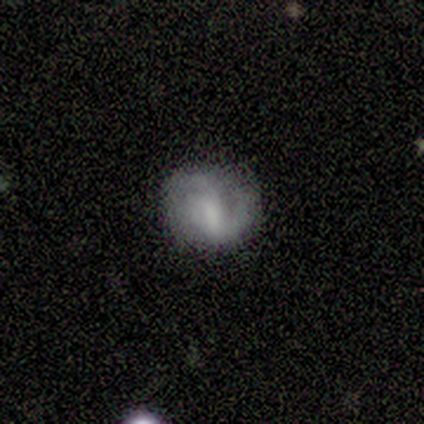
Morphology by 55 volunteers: Smooth or featured?
  - featured or disk: 53% *
  - smooth: 42%
  - star or artifact: 5%
Edge-on disk?
  - no: 100% *
  - yes: 0%
Bar?
  - weak: 55% *
  - strong: 28%
  - no: 17%
Spiral arms?
  - yes: 90% *
  - no: 10%
Spiral winding?
  - medium: 42% *
  - loose: 31%
  - tight: 27%
Spiral arm count?
  - 2: 58% *
  - 1: 15%
  - 3: 15%
  - can't tell: 12%
  - 4: 0%
  - more than 4: 0%
Bulge size?
  - moderate: 38% * (tied)
  - none: 38% * (tied)
  - large: 10%
  - small: 10%
  - dominant: 3%
Merging?
  - none: 60% *
  - minor disturbance: 25%
  - major disturbance: 15%
  - merger: 0%